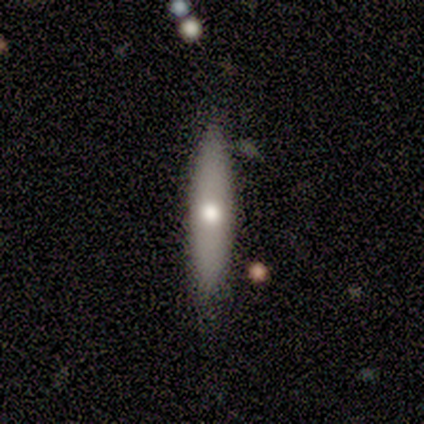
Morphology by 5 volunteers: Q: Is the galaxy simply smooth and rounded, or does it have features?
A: smooth — 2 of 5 (40%, tied with featured or disk).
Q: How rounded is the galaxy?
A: cigar-shaped — 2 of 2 (100%).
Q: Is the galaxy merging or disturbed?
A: none — 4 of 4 (100%).